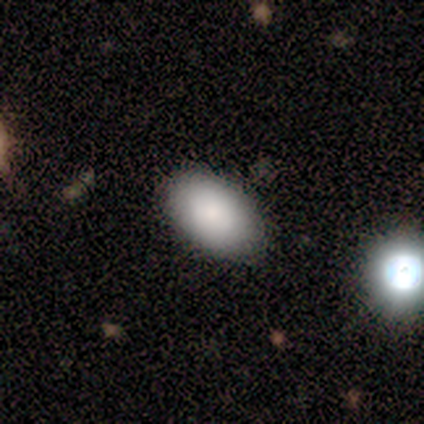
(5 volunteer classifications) Morphology: type=smooth (100%); roundness=in between (100%); merging=none (60%).